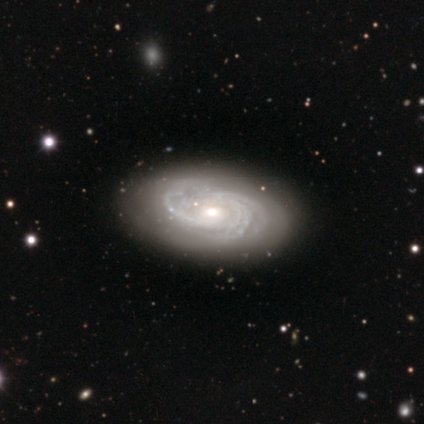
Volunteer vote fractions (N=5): Smooth or featured: featured or disk — 80% (smooth — 20%)
Edge-on disk: no — 100%
Bar: no — 75% (weak — 25%)
Spiral arms: yes — 100%
Spiral winding: tight — 100%
Spiral arm count: 2 — 50% (tied with 4 — 50%)
Bulge size: moderate — 75% (small — 25%)
Merging: minor disturbance — 60% (none — 40%)